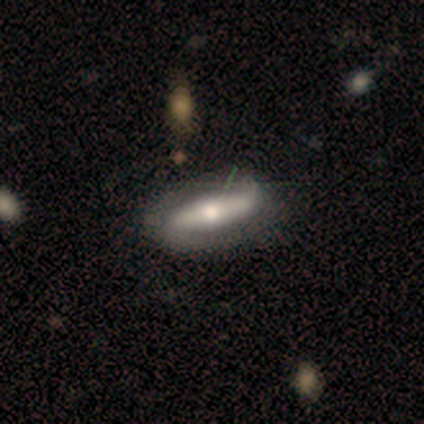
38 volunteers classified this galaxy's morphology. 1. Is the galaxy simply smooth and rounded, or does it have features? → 71% featured or disk, 29% smooth, 0% star or artifact.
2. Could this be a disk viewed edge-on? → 56% no, 44% yes.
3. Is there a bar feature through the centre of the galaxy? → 80% strong, 13% no, 7% weak.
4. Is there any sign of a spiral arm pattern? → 67% yes, 33% no.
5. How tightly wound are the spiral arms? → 50% medium, 30% loose, 20% tight.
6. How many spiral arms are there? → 90% 2, 10% can't tell, 0% 1, 0% 3, 0% 4, 0% more than 4.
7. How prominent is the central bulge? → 53% moderate, 33% large, 13% small, 0% dominant, 0% none.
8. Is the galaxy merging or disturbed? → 39% none, 11% minor disturbance, 8% merger, 5% major disturbance.